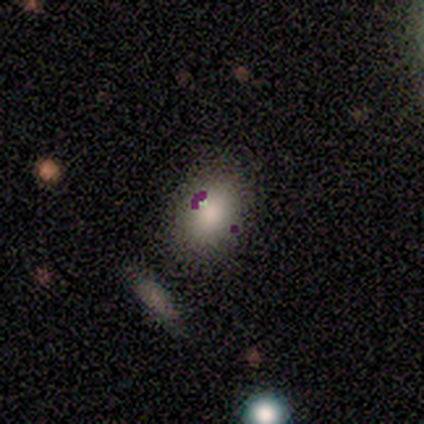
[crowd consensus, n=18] Overall: smooth (67%; featured or disk 28%). How rounded: in between (83%). Merging: none (65%; minor disturbance 29%).